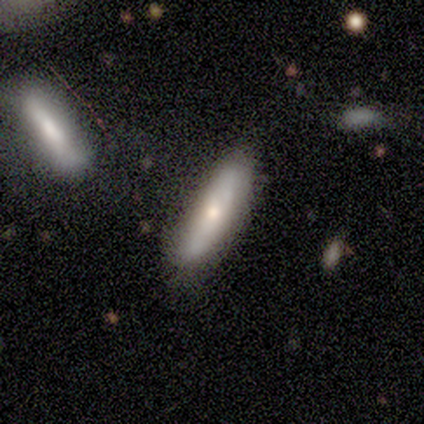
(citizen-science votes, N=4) A smooth galaxy with no disk features (75%) that is cigar-shaped (67%).

Vote fractions:
- Smooth or featured? smooth: 75% / featured or disk: 25% / star or artifact: 0%
- How rounded? cigar-shaped: 67% / in between: 33% / round: 0%
- Merging? none: 75% / minor disturbance: 25% / major disturbance: 0% / merger: 0%